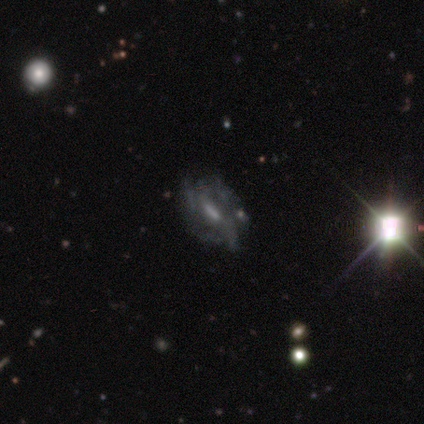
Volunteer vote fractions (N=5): featured or disk 60%, smooth 20%, star or artifact 20%. Down the decision tree: edge-on disk — no (100%); bar — strong (67%); spiral arms — yes (100%); spiral arm count — can't tell (100%); spiral winding — tight (100%); bulge size — moderate (67%); merging — none (100%).